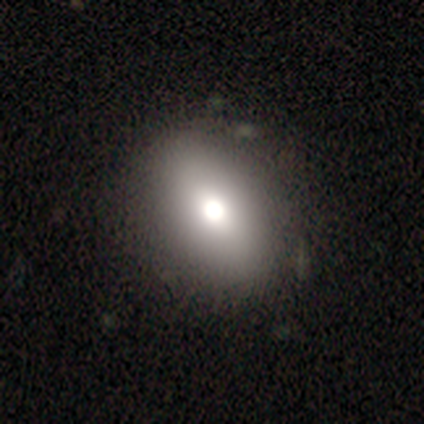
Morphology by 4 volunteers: smooth-or-featured: smooth: 50% (tied) | star or artifact: 50% (tied) | featured or disk: 0%
  how-rounded: round: 50% (tied) | in between: 50% (tied) | cigar-shaped: 0%
  merging: none: 100% | minor disturbance: 0% | major disturbance: 0% | merger: 0%